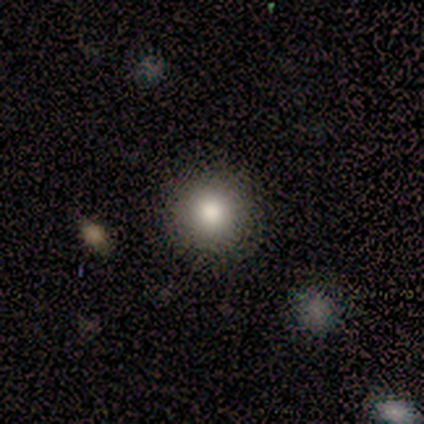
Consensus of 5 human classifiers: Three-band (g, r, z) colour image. It shows a smooth galaxy with no disk features (100%) that is round (100%). Merging: none (100%).